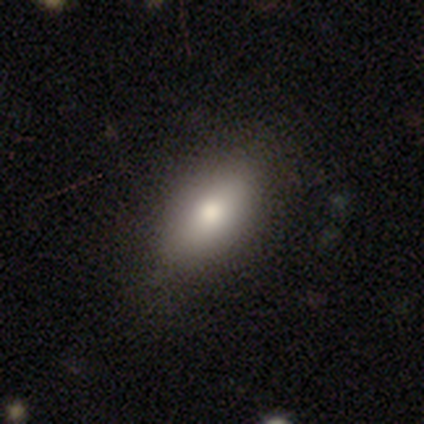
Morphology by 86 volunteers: Smooth or featured: smooth — 81% (featured or disk — 10%)
How rounded: in between — 89% (cigar-shaped — 9%)
Merging: none — 82% (minor disturbance — 11%)